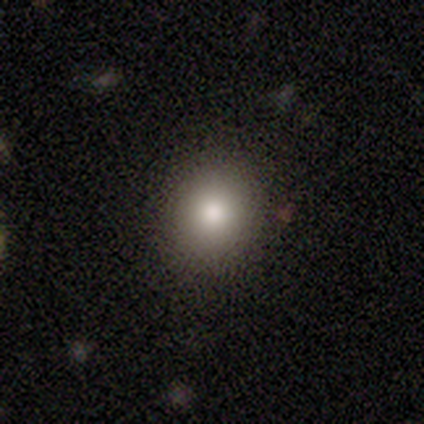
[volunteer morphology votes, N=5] smooth_or_featured: smooth (p=0.60) [alt: star or artifact p=0.40]
how_rounded: round (p=0.67) [alt: in between p=0.33]
merging: none (p=1.00)